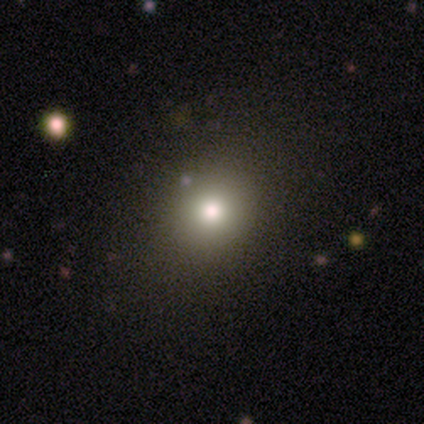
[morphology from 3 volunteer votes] Overall: smooth (67%; featured or disk 33%). How rounded: round (100%). Merging: none (100%).